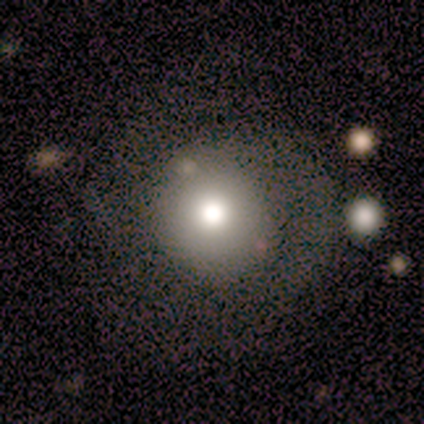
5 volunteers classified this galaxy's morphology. type=smooth (100%); roundness=round (100%); merging=none (60%).